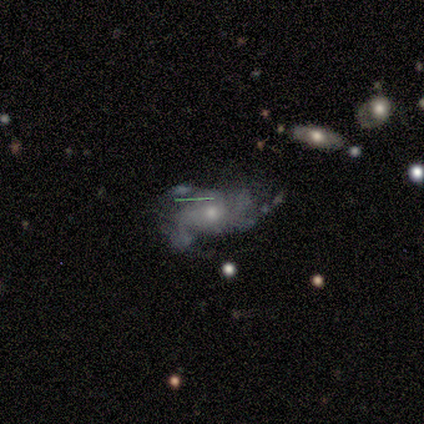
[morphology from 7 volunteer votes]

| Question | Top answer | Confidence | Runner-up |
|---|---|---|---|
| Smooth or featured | featured or disk | 71% | smooth (29%) |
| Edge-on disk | no | 100% | — |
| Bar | no | 80% | weak (20%) |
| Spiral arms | yes | 60% | no (40%) |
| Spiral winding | medium | 67% | tight (33%) |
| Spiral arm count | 3 | 67% | 2 (33%) |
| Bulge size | moderate | 60% | small (40%) |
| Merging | none | 29% | tied: minor disturbance (29%), merger (29%) |